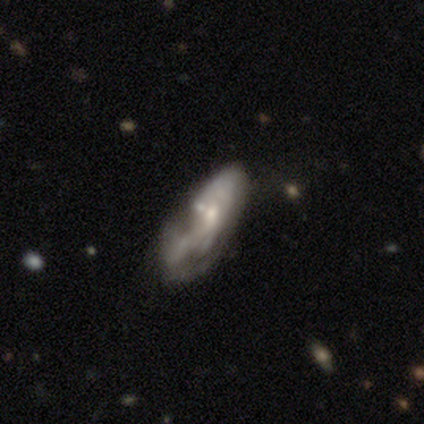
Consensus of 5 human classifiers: smooth_or_featured: featured or disk (p=0.80) [alt: smooth p=0.20]
disk_edge_on: no (p=1.00)
bar: weak (p=0.50) [tied with: no p=0.50]
has_spiral_arms: yes (p=1.00)
spiral_winding: loose (p=0.50) [alt: tight p=0.25]
spiral_arm_count: 2 (p=0.50) [tied with: can't tell p=0.50]
bulge_size: moderate (p=0.50) [tied with: small p=0.50]
merging: none (p=0.40) [alt: minor disturbance p=0.20]